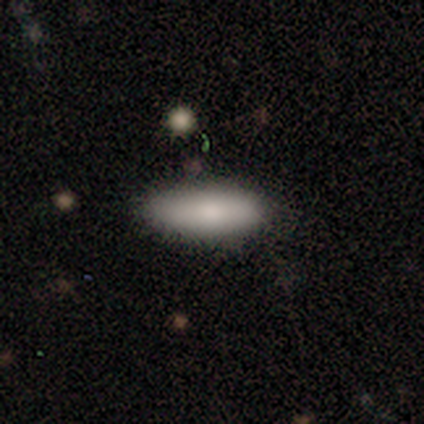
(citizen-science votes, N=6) Smooth or featured? smooth (67%)
How rounded? in between (75%)
Merging? none (80%)